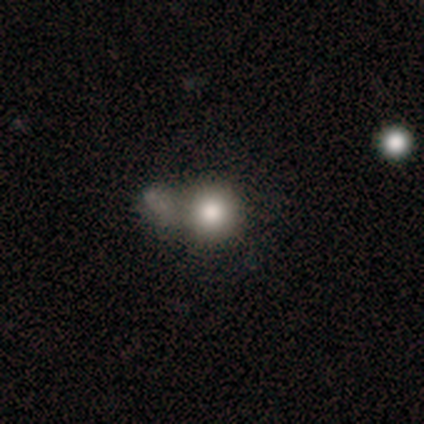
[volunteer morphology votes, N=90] smooth-or-featured: smooth: 67% | star or artifact: 18% | featured or disk: 16%
  how-rounded: round: 95% | in between: 5% | cigar-shaped: 0%
  merging: none: 41% | merger: 28% | major disturbance: 16% | minor disturbance: 15%